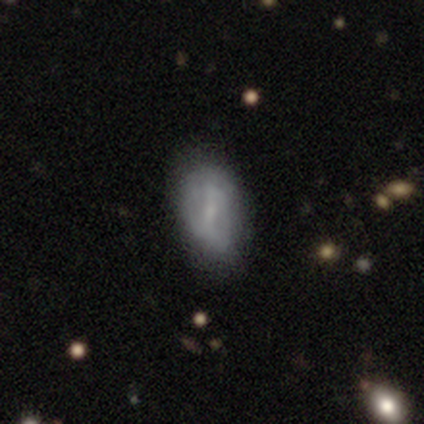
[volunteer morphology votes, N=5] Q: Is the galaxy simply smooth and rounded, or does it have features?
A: featured or disk — 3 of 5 (60%).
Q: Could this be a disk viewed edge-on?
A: no — 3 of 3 (100%).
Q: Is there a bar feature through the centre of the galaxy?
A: strong — 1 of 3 (33%, tied with weak and no).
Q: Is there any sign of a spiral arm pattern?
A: no — 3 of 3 (100%).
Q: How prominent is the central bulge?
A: small — 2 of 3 (67%).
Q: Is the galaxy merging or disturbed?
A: none — 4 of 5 (80%).